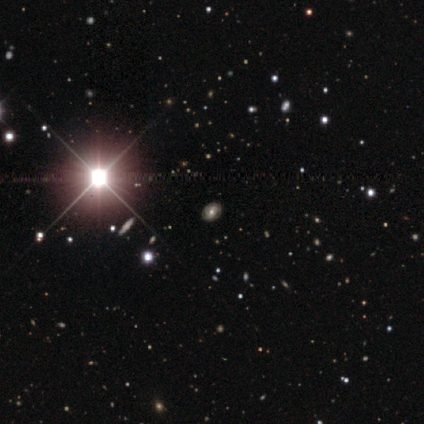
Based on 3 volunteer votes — Smooth or featured? 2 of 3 (67%) said featured or disk. Edge-on disk? 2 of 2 (100%) said no. Bar? 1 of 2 (50%, tied with no) said strong. Spiral arms? 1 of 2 (50%, tied with no) said yes. Spiral winding? 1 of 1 (100%) said tight. Spiral arm count? 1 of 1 (100%) said can't tell. Bulge size? 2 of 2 (100%) said moderate. Merging? 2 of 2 (100%) said none.